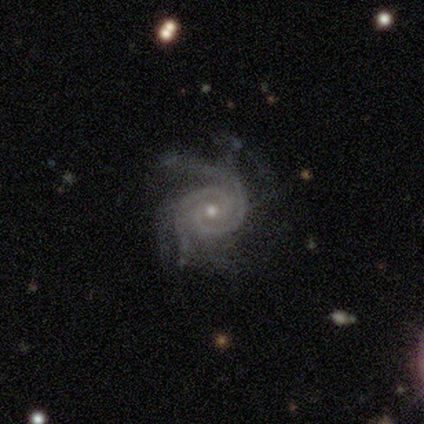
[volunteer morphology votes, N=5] Smooth or featured? featured or disk (100%)
Edge-on disk? no (100%)
Bar? no (80%)
Spiral arms? yes (100%)
Spiral winding? tight (40%, tied with medium)
Spiral arm count? 2 (60%)
Bulge size? moderate (80%)
Merging? major disturbance (60%)